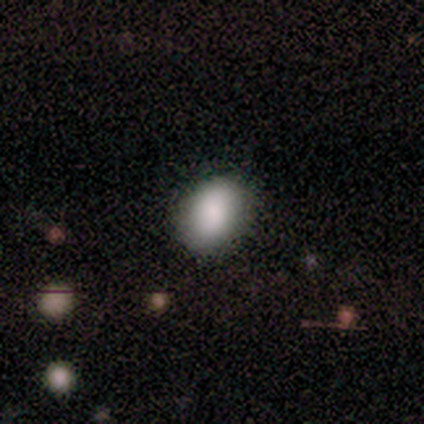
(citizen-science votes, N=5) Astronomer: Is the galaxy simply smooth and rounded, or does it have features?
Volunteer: smooth — 100%.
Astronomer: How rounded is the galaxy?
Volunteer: in between — 80%.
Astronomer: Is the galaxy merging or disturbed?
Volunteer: none — 100%.